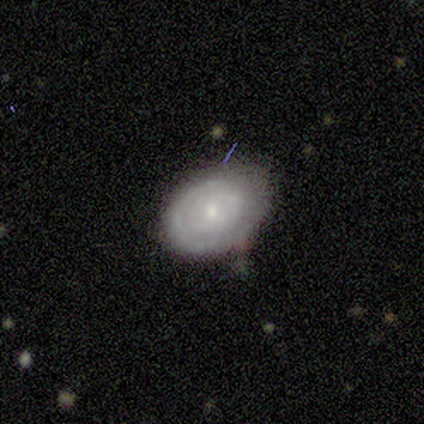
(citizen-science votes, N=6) This appears to be a smooth galaxy with no disk features (50%, tied with featured or disk) that is in between round and cigar-shaped (67%). Merging: none (67%).